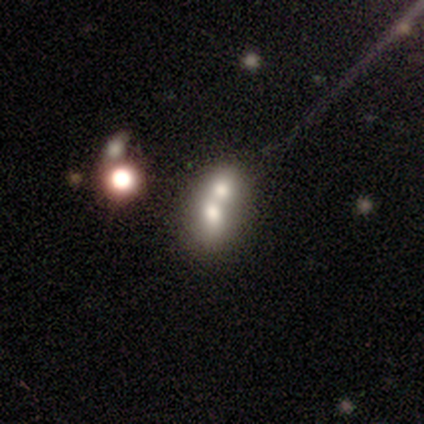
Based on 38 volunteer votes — Smooth or featured: smooth — 53% (featured or disk — 26%)
How rounded: in between — 65% (round — 35%)
Merging: merger — 77% (none — 13%)